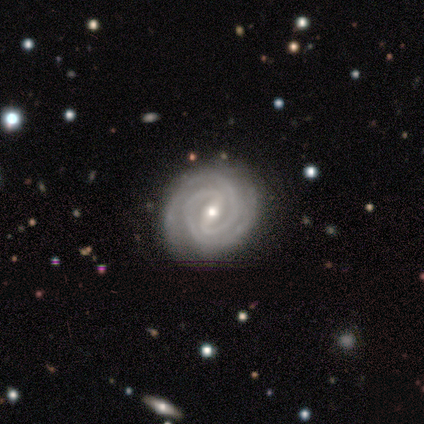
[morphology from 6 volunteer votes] This is clearly a featured or disk galaxy (100%). It is clearly not viewed edge-on (100%). Bar: clearly strong (83%). Spiral arm pattern: clearly yes (100%). Spiral arm count: clearly 2 (83%). Spiral winding: clearly tight (100%). Central bulge: likely moderate (67%). Merging: clearly none (83%).